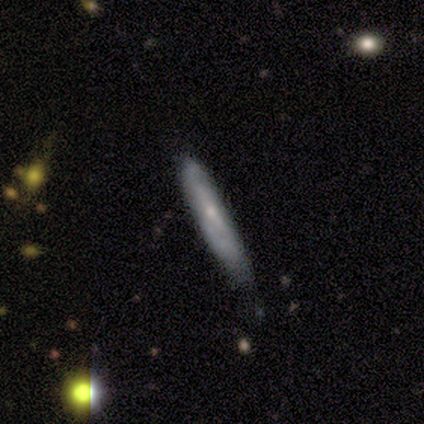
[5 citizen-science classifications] smooth 60%, featured or disk 20%, star or artifact 20%. Down the decision tree: how rounded — cigar-shaped (100%); merging — none (75%).